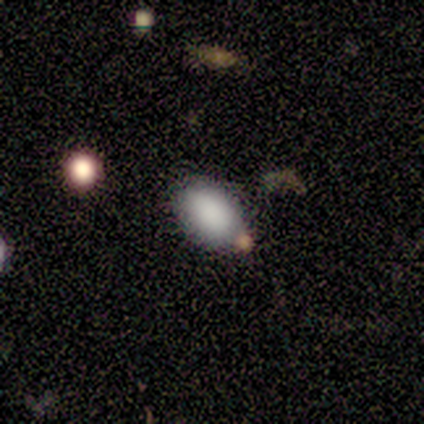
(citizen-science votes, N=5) Volunteers were most divided on "smooth or featured": smooth: 60%, featured or disk: 20%, star or artifact: 20%. More confident: how rounded — in between (100%); merging — none (75%).